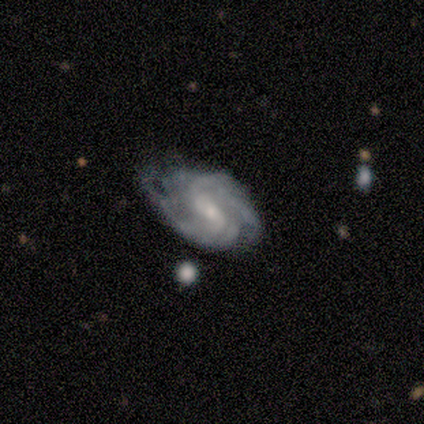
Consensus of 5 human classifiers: This appears to be a featured or disk galaxy (80%) with no bar (67%), 2 (33%, tied with 4 and can't tell) tight (67%) spiral arms (100%) and a small central bulge (67%). Merging: none (40%, tied with minor disturbance).